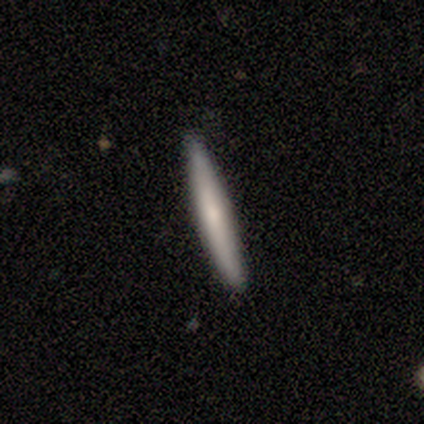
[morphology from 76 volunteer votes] Volunteers were most divided on "smooth or featured": smooth: 58%, featured or disk: 39%, star or artifact: 3%. More confident: how rounded — cigar-shaped (100%); merging — none (92%).